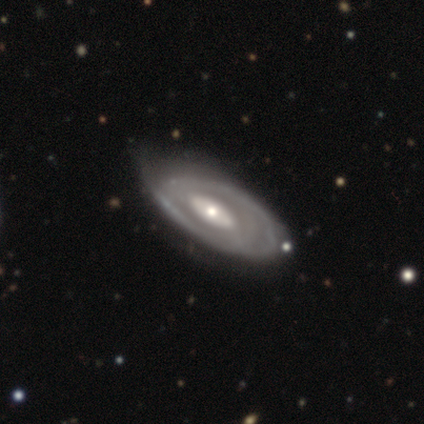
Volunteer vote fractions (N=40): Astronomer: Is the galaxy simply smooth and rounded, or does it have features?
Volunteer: featured or disk — 80%.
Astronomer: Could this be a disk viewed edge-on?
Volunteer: no — 81%.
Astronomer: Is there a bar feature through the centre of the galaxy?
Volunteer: strong — 35%, tied with no at 35%.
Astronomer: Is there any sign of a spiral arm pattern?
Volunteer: yes — 73%.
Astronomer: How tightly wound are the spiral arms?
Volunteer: tight — 58% (runner-up: medium, 37%).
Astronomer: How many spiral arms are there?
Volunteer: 2 — 53% (runner-up: can't tell, 32%).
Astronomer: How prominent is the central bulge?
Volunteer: moderate — 42%, tied with small at 42%.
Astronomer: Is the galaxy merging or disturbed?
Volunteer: none — 46% (runner-up: minor disturbance, 31%).